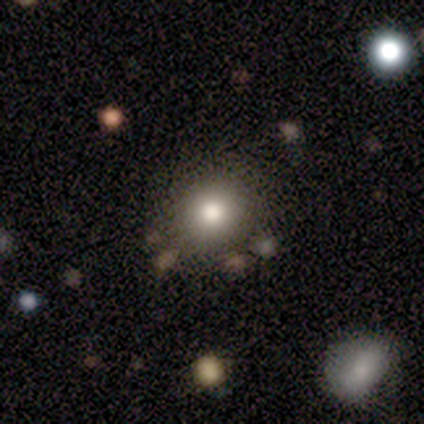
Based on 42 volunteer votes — Smooth or featured?
  - smooth: 76% *
  - star or artifact: 19%
  - featured or disk: 5%
How rounded?
  - round: 91% *
  - in between: 9%
  - cigar-shaped: 0%
Merging?
  - none: 85% *
  - minor disturbance: 12%
  - merger: 3%
  - major disturbance: 0%